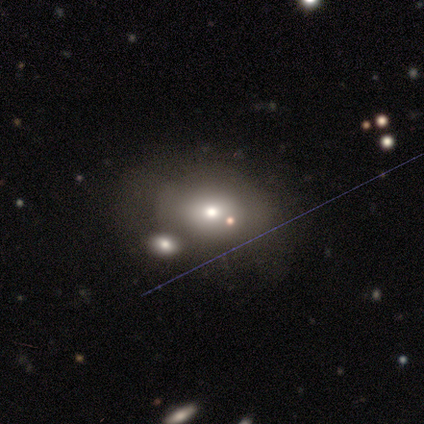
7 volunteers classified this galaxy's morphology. Smooth or featured? smooth (86%)
How rounded? in between (67%)
Merging? none (71%)